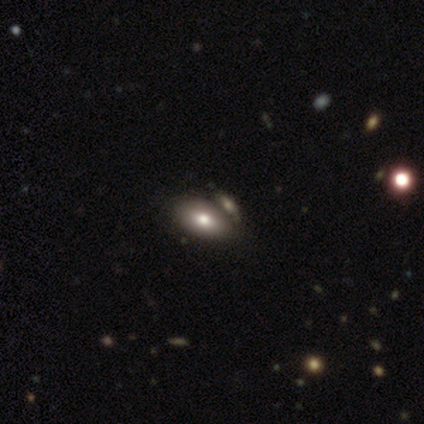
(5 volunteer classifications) smooth 100%, featured or disk 0%, star or artifact 0%. Down the decision tree: how rounded — in between (100%); merging — none (40%, tied with merger).